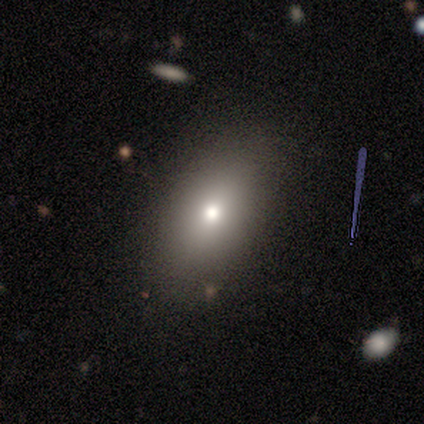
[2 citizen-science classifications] Overall: smooth (100%). How rounded: in between (100%). Merging: none (100%).